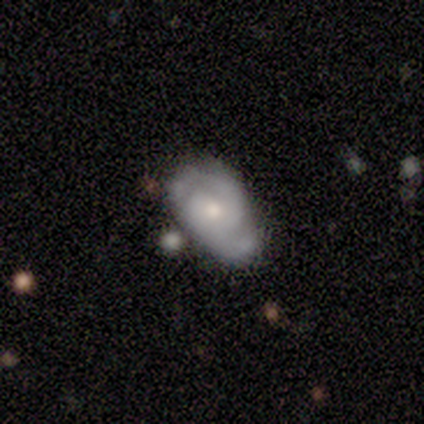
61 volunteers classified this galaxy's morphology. This appears to be a featured or disk galaxy (82%) with no bar (60%), 2 (88%) tight (50%) spiral arms (96%) and a moderate central bulge (62%). Merging: none (47%).